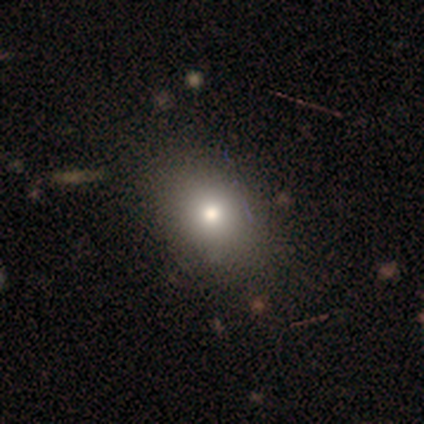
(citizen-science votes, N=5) Smooth or featured: smooth — 80% (featured or disk — 20%)
How rounded: round — 50% (tied with in between — 50%)
Merging: none — 100%